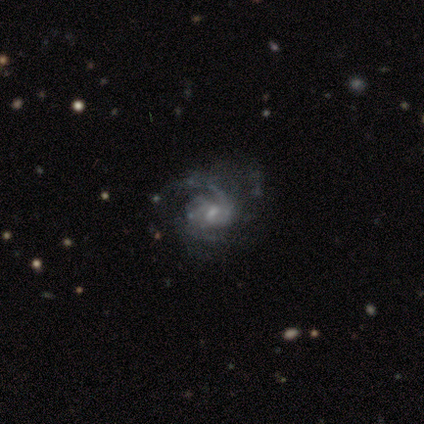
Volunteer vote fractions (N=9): Smooth or featured? 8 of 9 (89%) said featured or disk. Edge-on disk? 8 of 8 (100%) said no. Bar? 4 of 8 (50%) said no. Spiral arms? 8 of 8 (100%) said yes. Spiral winding? 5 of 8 (62%) said tight. Spiral arm count? 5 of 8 (62%) said can't tell. Bulge size? 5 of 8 (62%) said small. Merging? 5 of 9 (56%) said none.